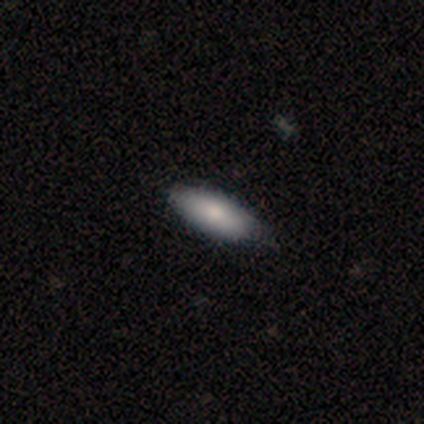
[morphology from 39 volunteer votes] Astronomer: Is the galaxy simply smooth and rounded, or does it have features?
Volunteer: smooth — 77%.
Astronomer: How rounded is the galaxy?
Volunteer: in between — 53% (runner-up: cigar-shaped, 43%).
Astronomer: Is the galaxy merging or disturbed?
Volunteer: none — 86%.